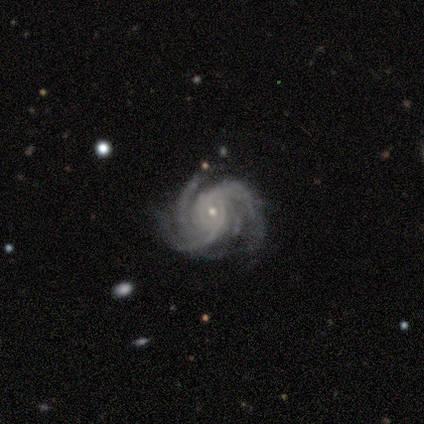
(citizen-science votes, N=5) A featured or disk galaxy (100%) with no bar (80%), 3 (40%) tight (40%, tied with medium) spiral arms (100%) and a small central bulge (60%). Merging: none (80%).